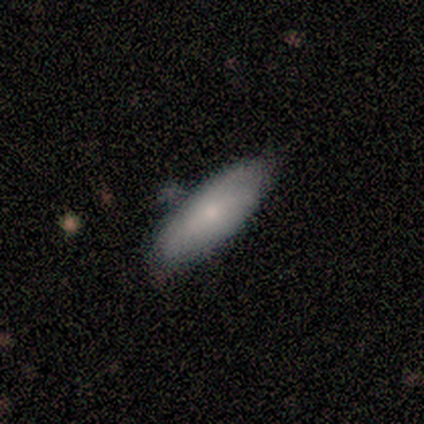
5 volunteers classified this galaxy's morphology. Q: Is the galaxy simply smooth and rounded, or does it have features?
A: smooth — 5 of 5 (100%).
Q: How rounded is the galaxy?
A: cigar-shaped — 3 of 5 (60%).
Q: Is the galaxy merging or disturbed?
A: none — 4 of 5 (80%).